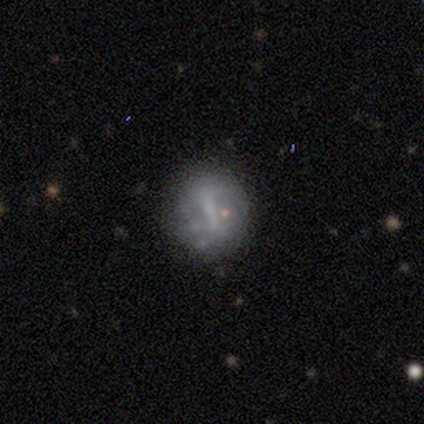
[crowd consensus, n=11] Morphology: type=featured or disk (55%); edge-on=no (83%); bar=strong (80%); spiral arms=no (80%); bulge=none (60%); merging=none (67%).